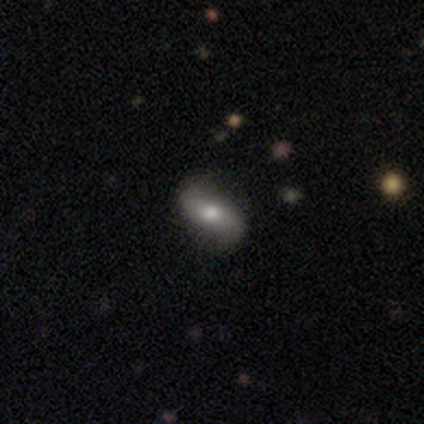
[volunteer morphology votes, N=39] smooth_or_featured: featured or disk (p=0.54) [alt: smooth p=0.36]
disk_edge_on: no (p=0.95) [alt: yes p=0.05]
bar: no (p=0.55) [alt: strong p=0.30]
has_spiral_arms: yes (p=0.80) [alt: no p=0.20]
spiral_winding: loose (p=0.62) [alt: medium p=0.31]
spiral_arm_count: 2 (p=1.00)
bulge_size: moderate (p=0.65) [alt: large p=0.15]
merging: none (p=0.77) [alt: minor disturbance p=0.11]